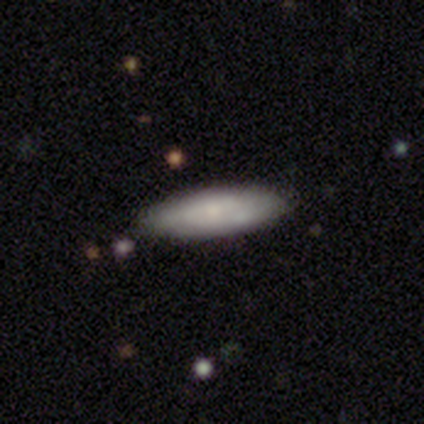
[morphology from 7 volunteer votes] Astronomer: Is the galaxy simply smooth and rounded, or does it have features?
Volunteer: smooth — 86%.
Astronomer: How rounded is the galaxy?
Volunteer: in between — 67%.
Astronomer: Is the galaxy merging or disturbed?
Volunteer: none — 86%.